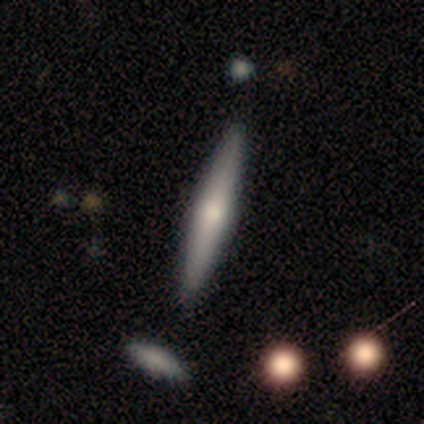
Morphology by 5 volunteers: This appears to be a featured or disk galaxy (80%) viewed edge-on (100%) with a rounded central bulge (75%). Merging: none (100%).